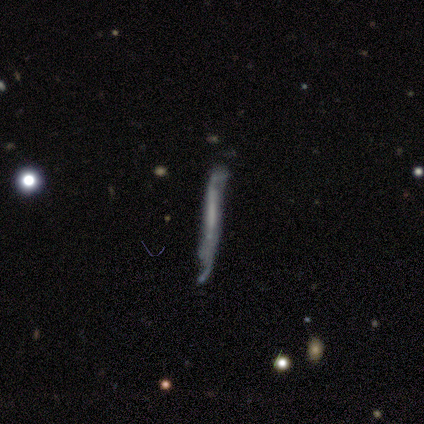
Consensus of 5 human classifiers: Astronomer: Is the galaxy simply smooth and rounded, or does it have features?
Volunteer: featured or disk — 60% (runner-up: smooth, 40%).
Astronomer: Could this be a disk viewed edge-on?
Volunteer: yes — 100%.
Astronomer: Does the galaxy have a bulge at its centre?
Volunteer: none — 67%.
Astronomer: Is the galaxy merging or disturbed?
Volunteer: minor disturbance — 80%.